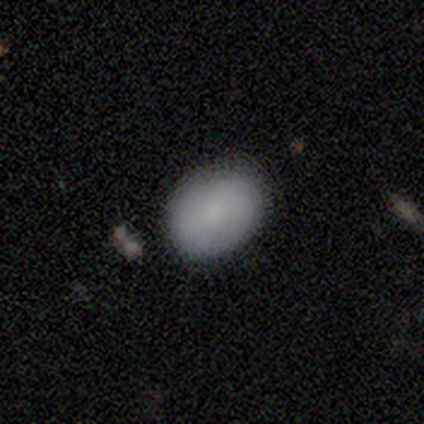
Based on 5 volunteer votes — smooth 100%, featured or disk 0%, star or artifact 0%. Down the decision tree: how rounded — in between (60%); merging — none (80%).